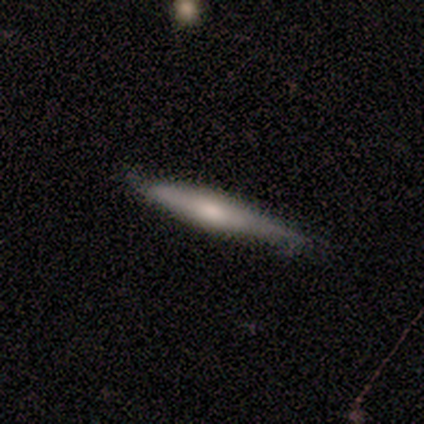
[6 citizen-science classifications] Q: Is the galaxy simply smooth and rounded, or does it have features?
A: smooth — 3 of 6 (50%, tied with featured or disk).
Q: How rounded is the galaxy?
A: cigar-shaped — 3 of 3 (100%).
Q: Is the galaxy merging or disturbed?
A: none — 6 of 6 (100%).